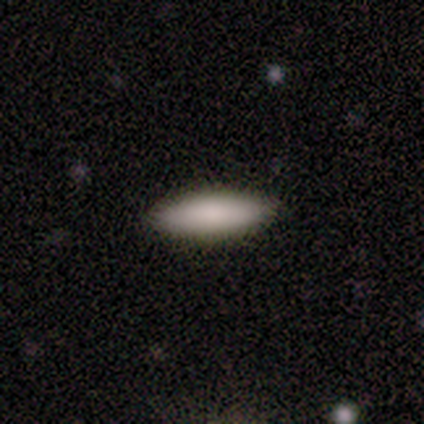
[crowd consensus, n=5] A smooth galaxy with no disk features (100%) that is in between round and cigar-shaped (60%).

Vote fractions:
- Smooth or featured? smooth: 100% / featured or disk: 0% / star or artifact: 0%
- How rounded? in between: 60% / cigar-shaped: 40% / round: 0%
- Merging? none: 80% / minor disturbance: 20% / major disturbance: 0% / merger: 0%